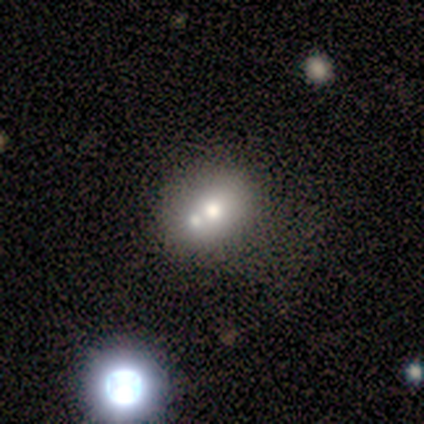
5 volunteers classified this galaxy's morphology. smooth-or-featured: featured or disk: 80% | smooth: 20% | star or artifact: 0%
  disk-edge-on: no: 75% | yes: 25%
    bar: no: 100% | strong: 0% | weak: 0%
    has-spiral-arms: no: 100% | yes: 0%
    bulge-size: moderate: 100% | dominant: 0% | large: 0% | small: 0% | none: 0%
  merging: merger: 60% | none: 20% | minor disturbance: 20% | major disturbance: 0%